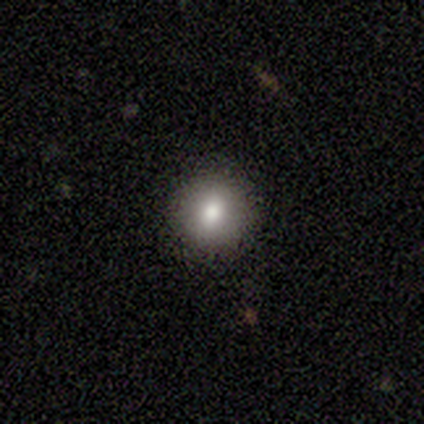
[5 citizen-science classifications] Morphology: type=smooth (40%, tied with featured or disk); roundness=round (100%); merging=none (100%).